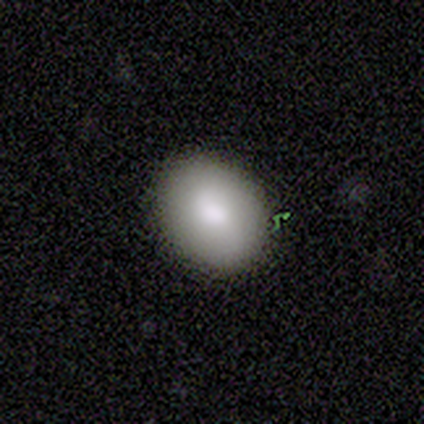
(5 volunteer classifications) Smooth or featured?
  - smooth: 80% *
  - featured or disk: 20%
  - star or artifact: 0%
How rounded?
  - in between: 100% *
  - round: 0%
  - cigar-shaped: 0%
Merging?
  - none: 80% *
  - minor disturbance: 20%
  - major disturbance: 0%
  - merger: 0%